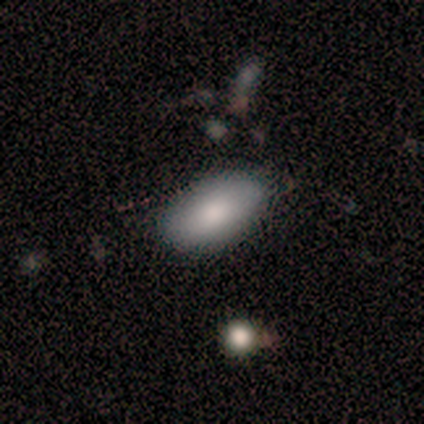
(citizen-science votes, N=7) Volunteers were most divided on "merging": none: 86%, minor disturbance: 14%, major disturbance: 0%, merger: 0%. More confident: smooth or featured — smooth (100%); how rounded — in between (100%).